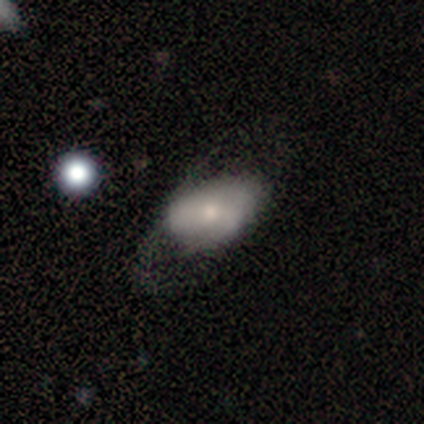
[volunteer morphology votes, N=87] smooth_or_featured: smooth (p=0.56) [alt: featured or disk p=0.40]
how_rounded: in between (p=0.98) [alt: round p=0.02]
merging: none (p=0.45) [alt: major disturbance p=0.32]